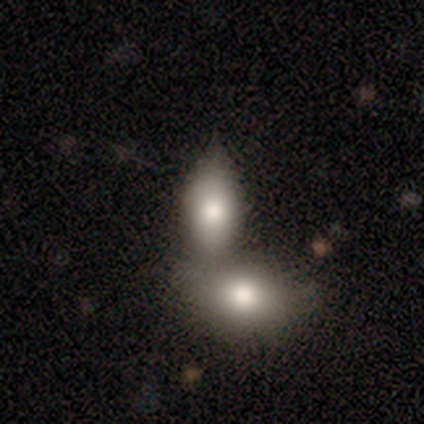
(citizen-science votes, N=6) Smooth or featured? smooth (83%)
How rounded? in between (100%)
Merging? merger (50%)